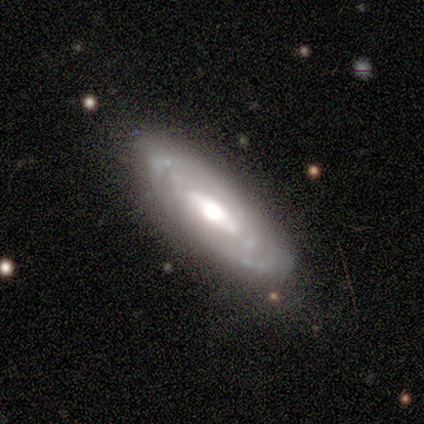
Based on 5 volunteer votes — Volunteers were most divided on "bar" (2-way tie): weak: 40%, no: 40%, strong: 20%. More confident: smooth or featured — featured or disk (100%); edge-on disk — no (100%); spiral winding — tight (100%); spiral arms — yes (80%); merging — none (80%); bulge size — moderate (60%); spiral arm count — can't tell (50%).